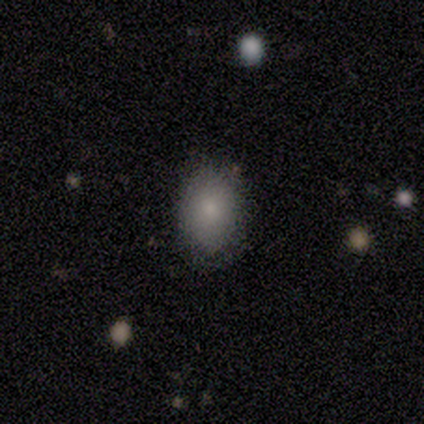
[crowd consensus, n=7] Morphology: type=smooth (71%); roundness=in between (100%); merging=none (83%).